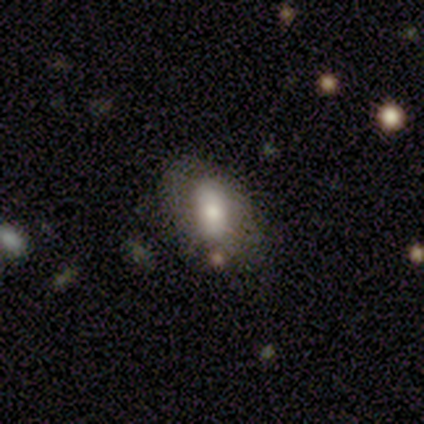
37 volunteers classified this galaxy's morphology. This is likely a smooth galaxy (76%). How rounded: clearly in between (82%). Merging: likely none (63%).